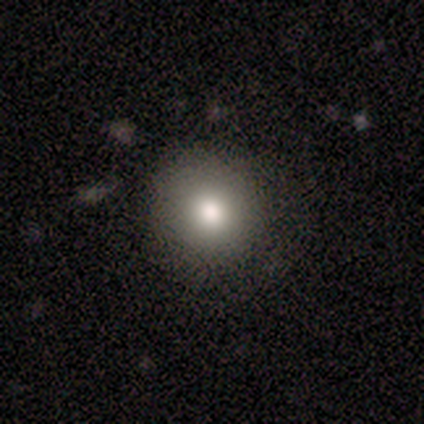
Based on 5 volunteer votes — Smooth or featured: smooth — 100%
How rounded: round — 80% (in between — 20%)
Merging: none — 80% (major disturbance — 20%)